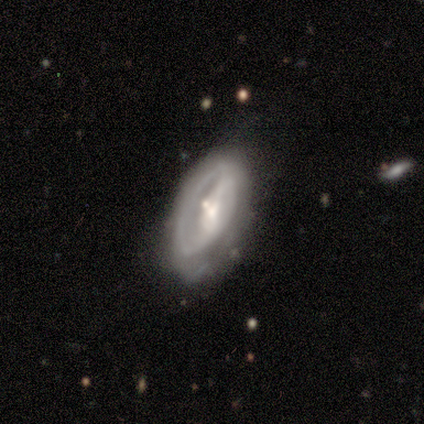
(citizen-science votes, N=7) smooth-or-featured: featured or disk: 57% | smooth: 29% | star or artifact: 14%
  disk-edge-on: no: 100% | yes: 0%
    bar: weak: 50% | strong: 25% | no: 25%
    has-spiral-arms: no: 75% | yes: 25%
    bulge-size: small: 75% | moderate: 25% | dominant: 0% | large: 0% | none: 0%
  merging: minor disturbance: 50% | none: 17% | major disturbance: 17% | merger: 17%